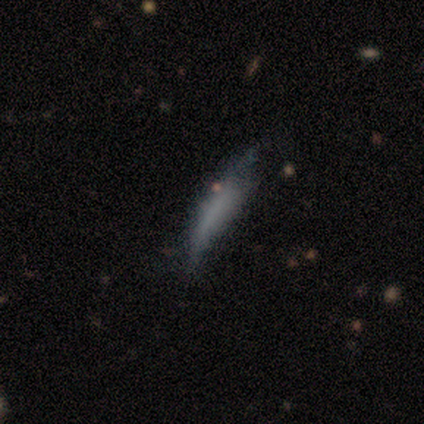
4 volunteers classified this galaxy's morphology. This appears to be a smooth galaxy with no disk features (50%, tied with featured or disk) that is cigar-shaped (100%). Merging: none (50%).